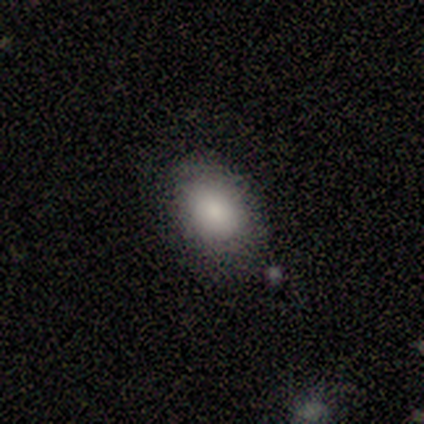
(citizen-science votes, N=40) Q: Smooth or featured?
A: smooth (90%); runner-up: featured or disk (5%)
Q: How rounded?
A: in between (72%); runner-up: round (28%)
Q: Merging?
A: none (66%); runner-up: minor disturbance (24%)